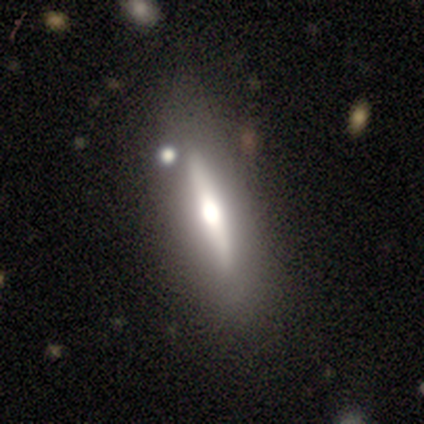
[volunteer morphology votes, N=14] A featured or disk galaxy (71%) viewed edge-on (80%) with a rounded central bulge (100%). Merging: none (79%).